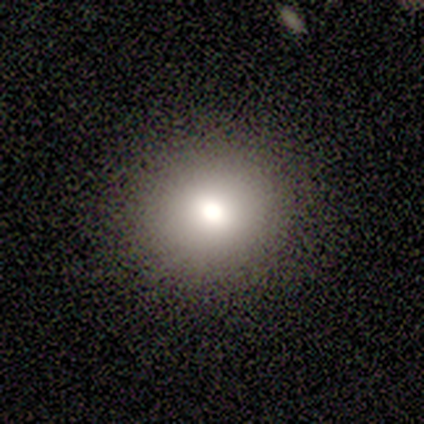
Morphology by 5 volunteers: A smooth galaxy with no disk features (40%, tied with star or artifact) that is round (100%). Merging: none (100%).